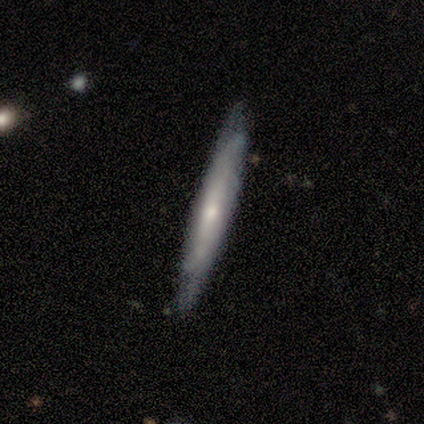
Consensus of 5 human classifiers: Volunteers were most divided on "smooth or featured": featured or disk: 60%, smooth: 40%, star or artifact: 0%. More confident: edge-on disk — yes (100%); merging — none (80%); edge-on bulge — rounded (67%).